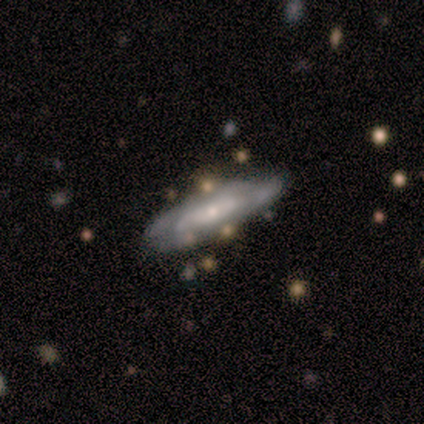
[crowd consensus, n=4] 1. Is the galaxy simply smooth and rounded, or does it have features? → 50% featured or disk, 25% smooth, 25% star or artifact.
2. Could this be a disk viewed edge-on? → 50% yes (tied), 50% no (tied).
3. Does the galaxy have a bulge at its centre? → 100% rounded, 0% boxy, 0% none.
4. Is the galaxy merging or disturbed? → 100% none, 0% minor disturbance, 0% major disturbance, 0% merger.